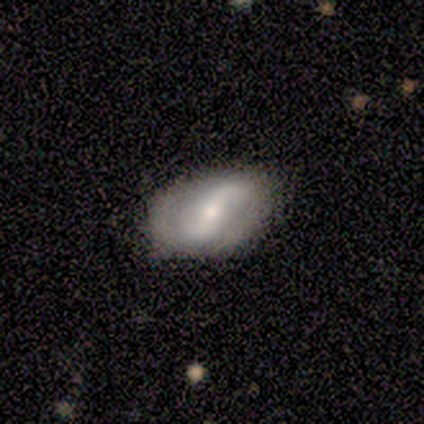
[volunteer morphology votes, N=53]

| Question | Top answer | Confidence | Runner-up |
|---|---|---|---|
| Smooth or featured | featured or disk | 74% | smooth (21%) |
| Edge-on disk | no | 97% | yes (3%) |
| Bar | strong | 45% | weak (29%) |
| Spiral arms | yes | 82% | no (18%) |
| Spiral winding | loose | 81% | tight (10%) |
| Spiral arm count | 2 | 100% | — |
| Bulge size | moderate | 42% | small (39%) |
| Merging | none | 78% | minor disturbance (20%) |